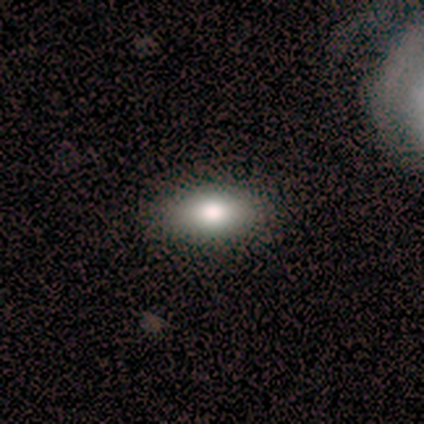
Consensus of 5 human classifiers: Morphology: type=smooth (100%); roundness=in between (100%); merging=none (100%).